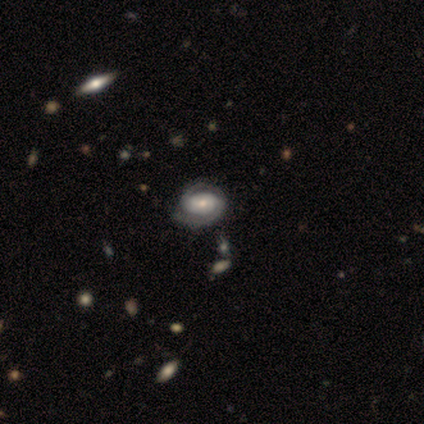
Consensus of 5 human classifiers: smooth-or-featured: featured or disk: 100% | smooth: 0% | star or artifact: 0%
  disk-edge-on: no: 100% | yes: 0%
    bar: strong: 40% (tied) | weak: 40% (tied) | no: 20%
    has-spiral-arms: yes: 100% | no: 0%
      spiral-winding: tight: 100% | medium: 0% | loose: 0%
      spiral-arm-count: 2: 100% | 1: 0% | 3: 0% | 4: 0% | more than 4: 0% | can't tell: 0%
    bulge-size: moderate: 100% | dominant: 0% | large: 0% | small: 0% | none: 0%
  merging: none: 80% | minor disturbance: 20% | major disturbance: 0% | merger: 0%